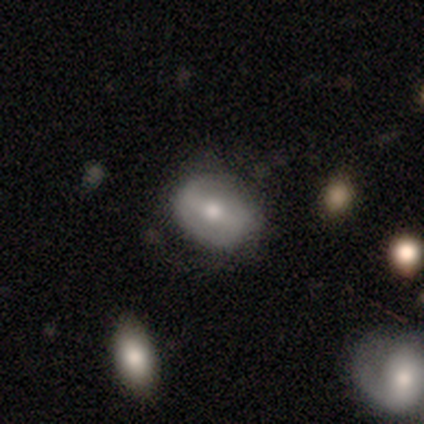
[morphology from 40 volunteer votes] Q: Smooth or featured?
A: featured or disk (52%); runner-up: smooth (48%)
Q: Edge-on disk?
A: no (100%)
Q: Bar?
A: strong (38%); runner-up: no (33%)
Q: Spiral arms?
A: yes (57%); runner-up: no (43%)
Q: Spiral winding?
A: loose (50%); runner-up: tight (25%)
Q: Spiral arm count?
A: 2 (75%); runner-up: can't tell (25%)
Q: Bulge size?
A: moderate (67%); runner-up: small (33%)
Q: Merging?
A: none (75%); runner-up: minor disturbance (12%)